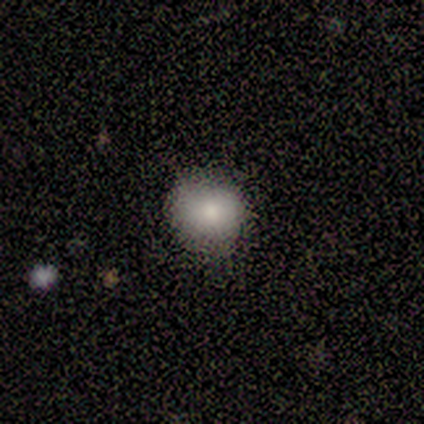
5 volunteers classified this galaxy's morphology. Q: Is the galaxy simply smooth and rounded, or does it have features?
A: smooth — 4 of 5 (80%).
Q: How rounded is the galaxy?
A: round — 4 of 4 (100%).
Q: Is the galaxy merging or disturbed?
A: none — 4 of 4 (100%).